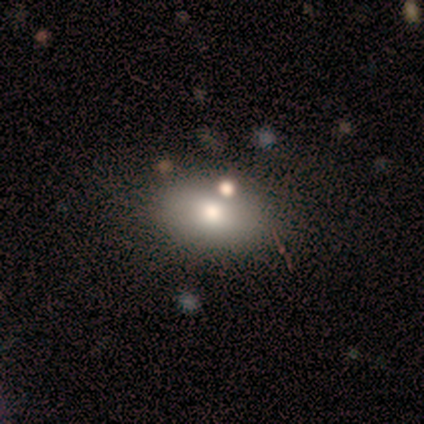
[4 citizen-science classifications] Smooth or featured: smooth — 50% (featured or disk — 25%)
How rounded: in between — 100%
Merging: none — 100%